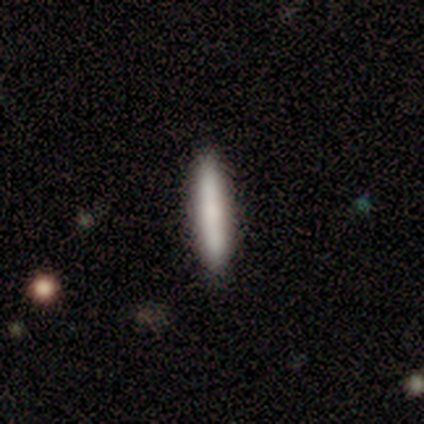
Smooth or featured? 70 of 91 (77%) said smooth. How rounded? 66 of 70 (94%) said cigar-shaped. Merging? 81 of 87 (93%) said none.